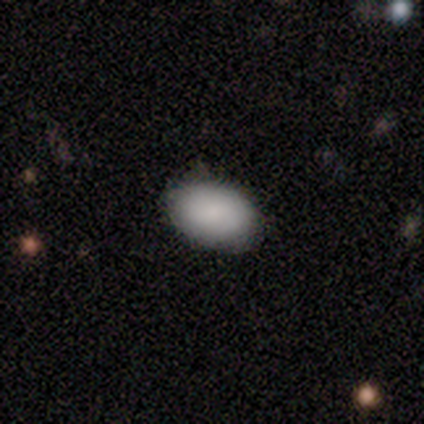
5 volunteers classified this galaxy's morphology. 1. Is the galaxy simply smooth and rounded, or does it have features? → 100% smooth, 0% featured or disk, 0% star or artifact.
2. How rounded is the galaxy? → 80% in between, 20% round, 0% cigar-shaped.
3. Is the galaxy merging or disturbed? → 80% none, 20% major disturbance, 0% minor disturbance, 0% merger.